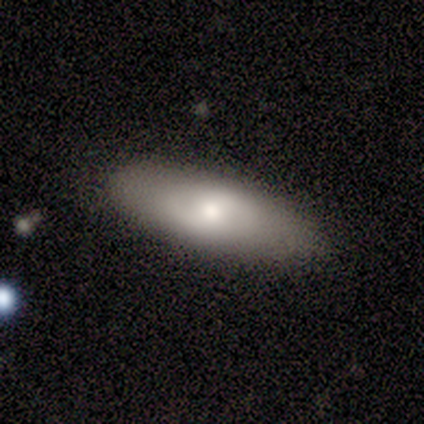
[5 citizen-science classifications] Q: Smooth or featured?
A: featured or disk (60%); runner-up: smooth (40%)
Q: Edge-on disk?
A: no (67%); runner-up: yes (33%)
Q: Bar?
A: strong (50%); tied with: no (50%)
Q: Spiral arms?
A: no (100%)
Q: Bulge size?
A: moderate (100%)
Q: Merging?
A: none (100%)